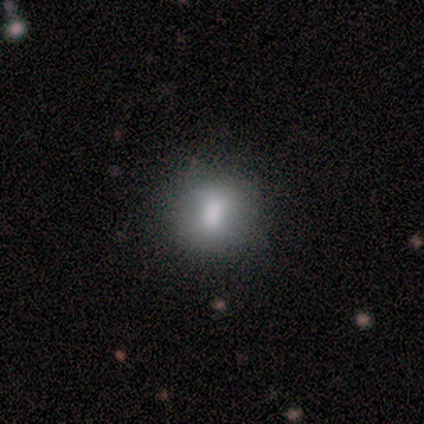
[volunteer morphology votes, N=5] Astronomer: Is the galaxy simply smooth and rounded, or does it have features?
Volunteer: smooth — 80%.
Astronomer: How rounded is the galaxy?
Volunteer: round — 50%.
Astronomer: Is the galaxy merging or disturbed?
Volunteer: none — 75%.